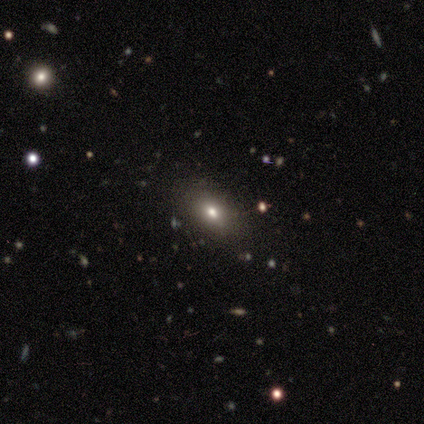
This appears to be a smooth galaxy with no disk features (60%) that is in between round and cigar-shaped (100%). Merging: none (100%).